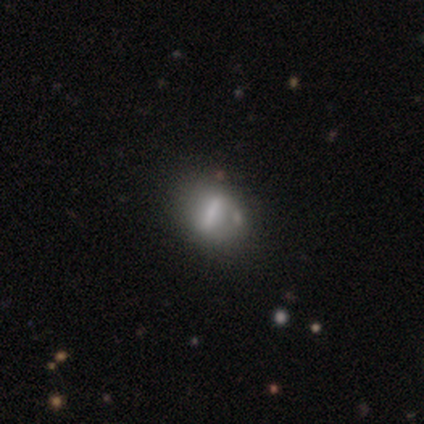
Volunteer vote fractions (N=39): smooth_or_featured: smooth (p=0.51) [alt: featured or disk p=0.36]
how_rounded: in between (p=0.40) [alt: cigar-shaped p=0.35]
merging: none (p=0.59) [alt: minor disturbance p=0.24]